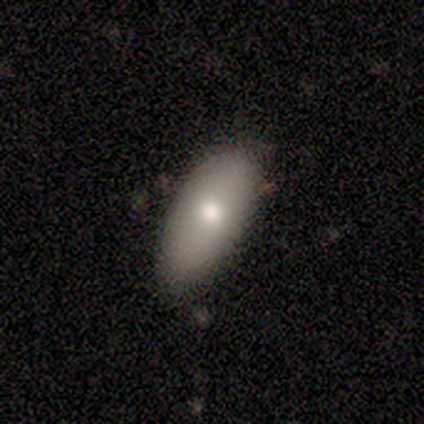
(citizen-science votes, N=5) Overall: smooth (60%; featured or disk 40%). How rounded: in between (100%). Merging: none (60%; minor disturbance 40%).